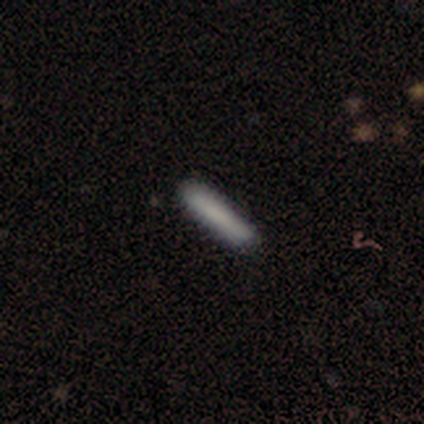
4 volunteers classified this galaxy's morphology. Smooth or featured: smooth — 100%
How rounded: cigar-shaped — 100%
Merging: none — 100%